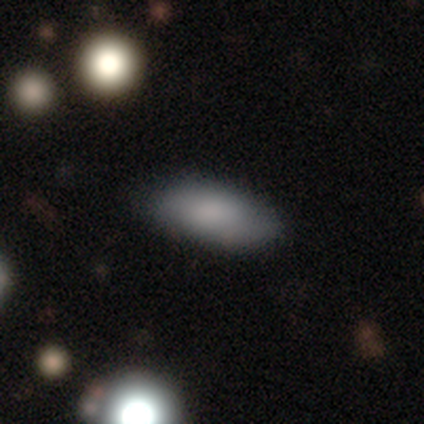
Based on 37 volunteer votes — Volunteers were most divided on "merging": none: 79%, minor disturbance: 15%, major disturbance: 6%, merger: 0%. More confident: how rounded — in between (87%); smooth or featured — smooth (81%).